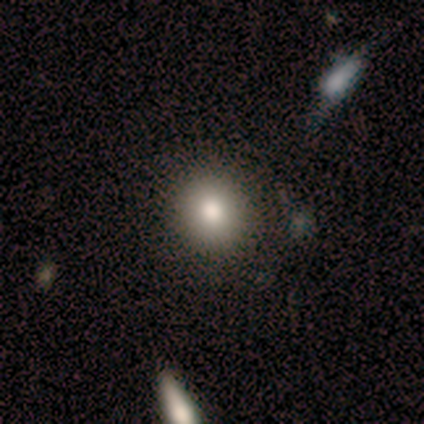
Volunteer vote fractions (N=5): smooth 60%, featured or disk 40%, star or artifact 0%. Down the decision tree: how rounded — round (100%); merging — none (100%).